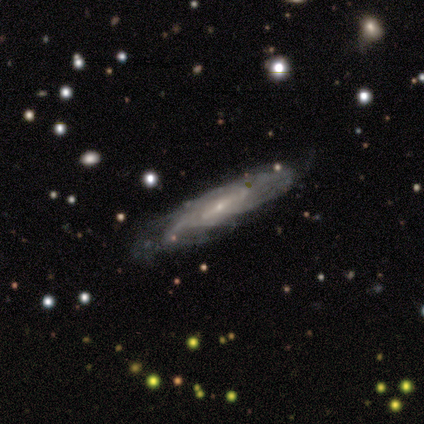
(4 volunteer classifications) smooth_or_featured: featured or disk (p=1.00)
disk_edge_on: no (p=1.00)
bar: weak (p=0.50) [alt: strong p=0.25]
has_spiral_arms: yes (p=1.00)
spiral_winding: tight (p=0.75) [alt: medium p=0.25]
spiral_arm_count: can't tell (p=1.00)
bulge_size: small (p=1.00)
merging: none (p=0.75) [alt: minor disturbance p=0.25]